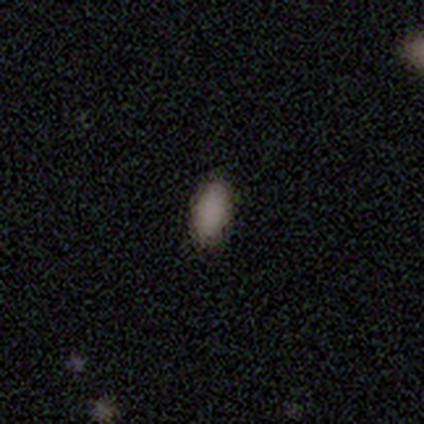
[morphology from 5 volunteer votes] A smooth galaxy with no disk features (60%) that is in between round and cigar-shaped (100%). Merging: none (100%).